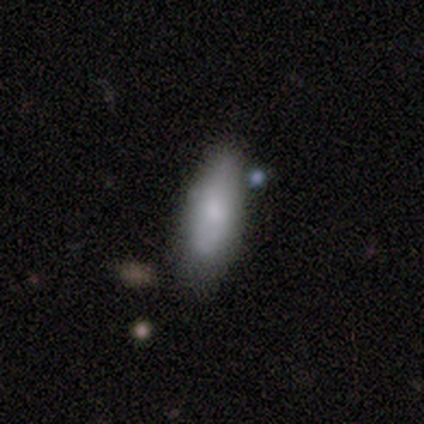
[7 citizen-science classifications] This appears to be a smooth galaxy with no disk features (57%) that is in between round and cigar-shaped (100%). Merging: minor disturbance (57%).